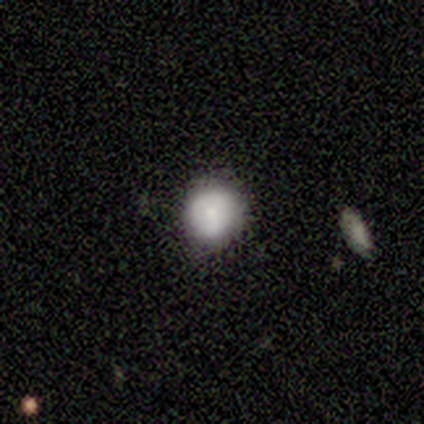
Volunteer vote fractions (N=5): This appears to be a smooth galaxy with no disk features (100%) that is round (100%). Merging: none (100%).